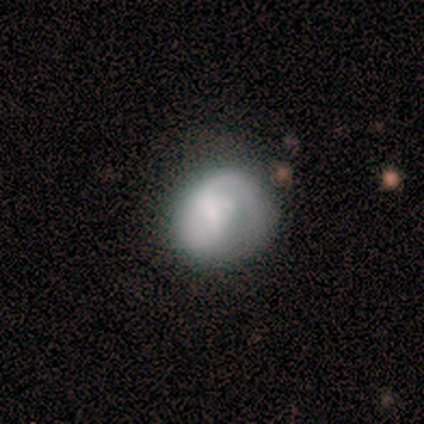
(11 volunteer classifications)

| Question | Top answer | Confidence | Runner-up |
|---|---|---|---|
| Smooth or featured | featured or disk | 55% | smooth (36%) |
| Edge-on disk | no | 100% | — |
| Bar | no | 67% | weak (33%) |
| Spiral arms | yes | 67% | no (33%) |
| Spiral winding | loose | 75% | medium (25%) |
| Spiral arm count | can't tell | 50% | 1 (25%) |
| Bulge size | small | 50% | large (17%) |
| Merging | none | 40% | tied: minor disturbance (40%) |